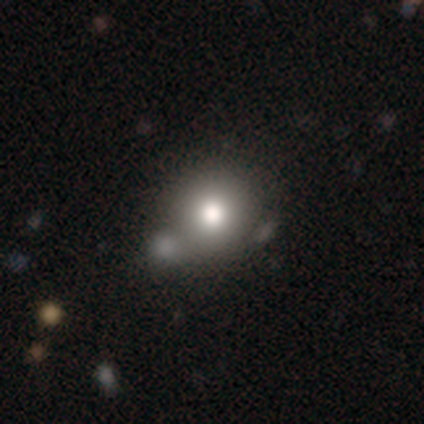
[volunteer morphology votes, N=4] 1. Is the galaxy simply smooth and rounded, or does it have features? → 75% smooth, 25% featured or disk, 0% star or artifact.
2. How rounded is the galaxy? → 100% round, 0% in between, 0% cigar-shaped.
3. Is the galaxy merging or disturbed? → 75% none, 25% major disturbance, 0% minor disturbance, 0% merger.